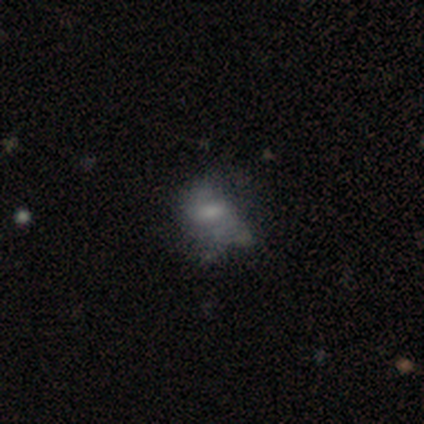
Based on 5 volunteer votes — Morphology: type=featured or disk (80%); edge-on=no (100%); bar=no (50%); spiral arms=yes (75%); winding=tight (33%, tied with medium and loose); arm count=2 (100%); bulge=moderate (50%, tied with small); merging=major disturbance (80%).